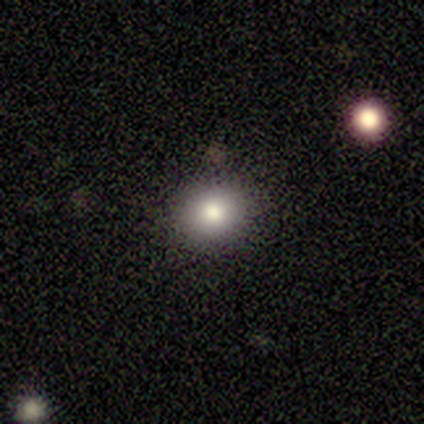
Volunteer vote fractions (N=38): This is clearly a smooth galaxy (84%). How rounded: clearly round (81%). Merging: clearly none (85%).